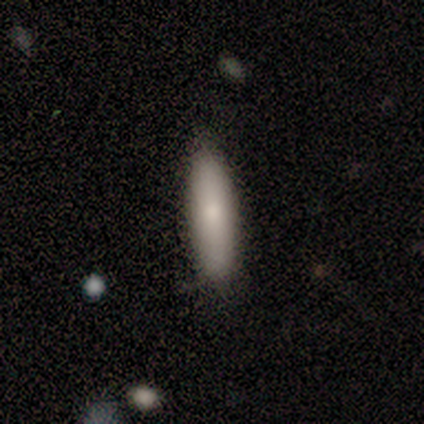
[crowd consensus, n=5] Morphology: type=smooth (80%); roundness=cigar-shaped (75%); merging=none (75%).